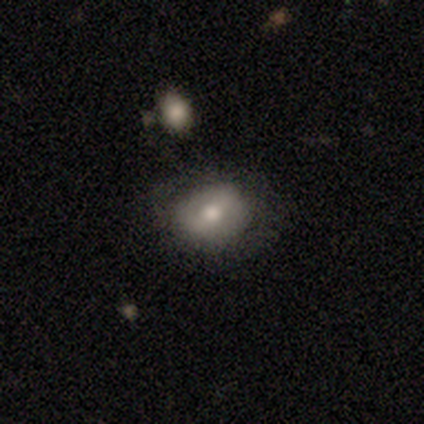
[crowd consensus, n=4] smooth_or_featured: smooth (p=0.75) [alt: featured or disk p=0.25]
how_rounded: round (p=0.67) [alt: in between p=0.33]
merging: none (p=0.75) [alt: minor disturbance p=0.25]